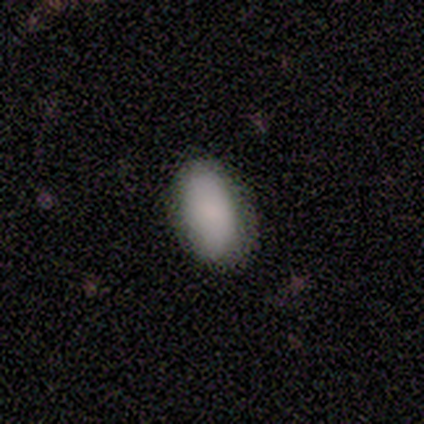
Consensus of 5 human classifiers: This is clearly a smooth galaxy (80%). How rounded: clearly in between (100%). Merging: clearly none (100%).